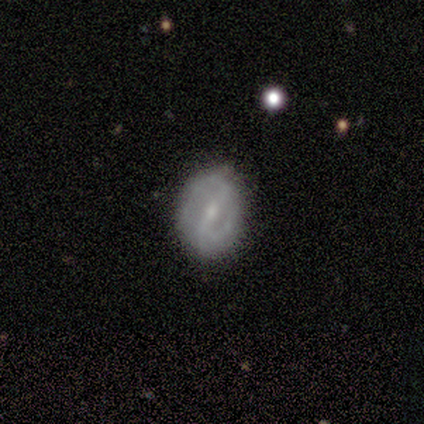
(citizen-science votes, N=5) This appears to be a featured or disk galaxy (80%) with a weak bar (50%, tied with no), 2 (75%) medium (50%) spiral arms (100%) and a small central bulge (100%). Merging: none (80%).